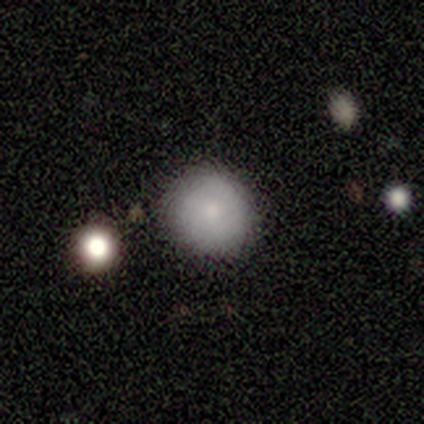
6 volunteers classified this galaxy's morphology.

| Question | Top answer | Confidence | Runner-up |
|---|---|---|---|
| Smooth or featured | smooth | 83% | star or artifact (17%) |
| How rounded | round | 100% | — |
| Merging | none | 80% | minor disturbance (20%) |